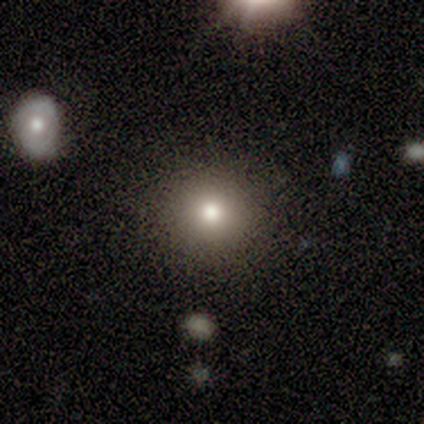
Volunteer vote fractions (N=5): Smooth or featured? 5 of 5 (100%) said smooth. How rounded? 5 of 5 (100%) said round. Merging? 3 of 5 (60%) said none.